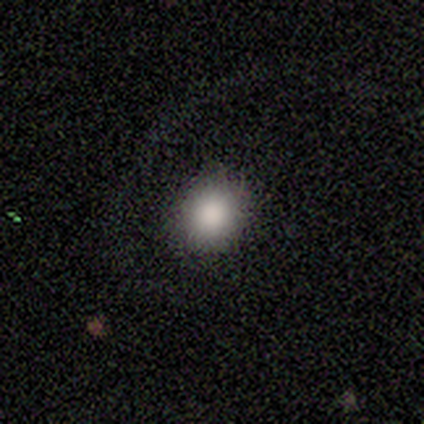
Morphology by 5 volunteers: smooth 100%, featured or disk 0%, star or artifact 0%. Down the decision tree: how rounded — round (60%); merging — none (100%).